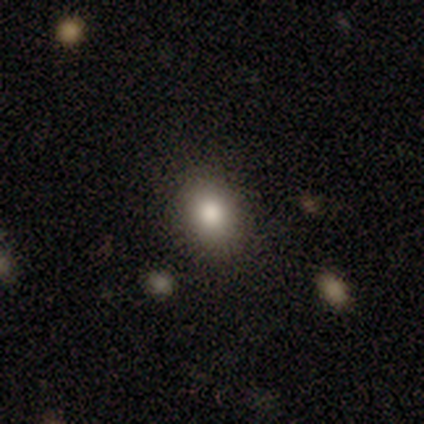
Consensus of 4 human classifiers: Volunteers were most divided on "merging" (2-way tie): none: 50%, minor disturbance: 50%, major disturbance: 0%, merger: 0%. More confident: smooth or featured — smooth (100%); how rounded — in between (75%).